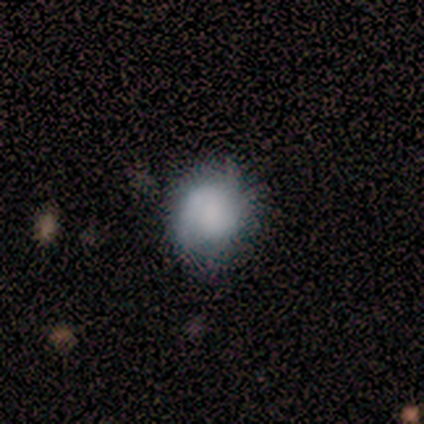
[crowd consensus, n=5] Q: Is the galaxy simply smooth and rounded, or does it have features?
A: featured or disk — 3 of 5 (60%).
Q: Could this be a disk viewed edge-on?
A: no — 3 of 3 (100%).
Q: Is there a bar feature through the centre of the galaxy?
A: no — 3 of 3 (100%).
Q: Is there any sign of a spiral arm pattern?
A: yes — 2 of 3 (67%).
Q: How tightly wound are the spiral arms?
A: tight — 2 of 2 (100%).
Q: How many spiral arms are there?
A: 2 — 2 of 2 (100%).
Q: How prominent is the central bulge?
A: none — 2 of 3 (67%).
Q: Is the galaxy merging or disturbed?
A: none — 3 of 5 (60%).